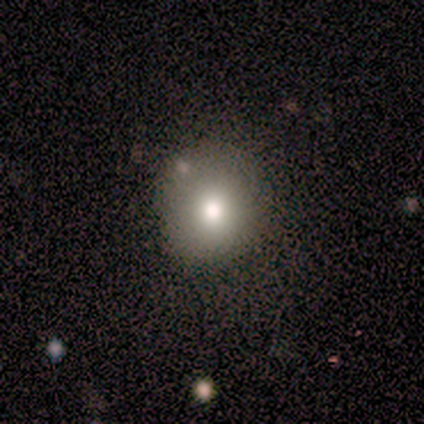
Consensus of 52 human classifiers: smooth_or_featured: smooth (p=0.67) [alt: featured or disk p=0.23]
how_rounded: round (p=0.86) [alt: in between p=0.14]
merging: none (p=0.79) [alt: minor disturbance p=0.13]